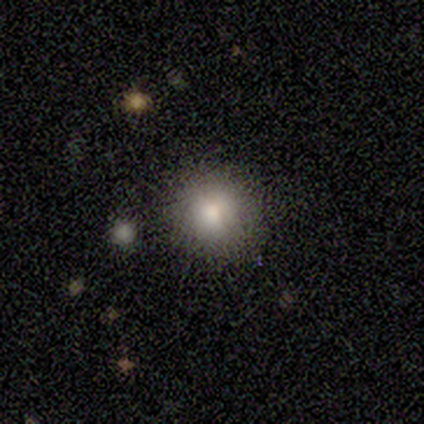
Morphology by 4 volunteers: Smooth or featured: smooth — 100%
How rounded: round — 100%
Merging: none — 100%